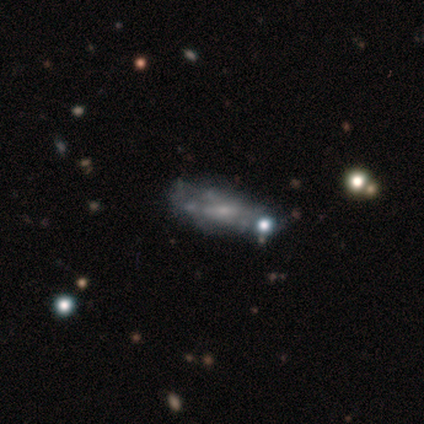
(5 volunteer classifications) Volunteers were most divided on "merging" (2-way tie): minor disturbance: 40%, merger: 40%, none: 20%, major disturbance: 0%. More confident: how rounded — cigar-shaped (67%); smooth or featured — smooth (60%).